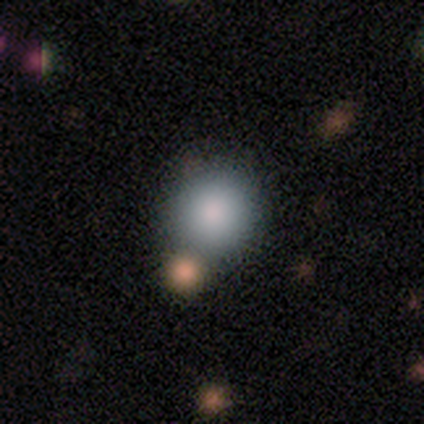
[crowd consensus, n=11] A smooth galaxy with no disk features (82%) that is round (100%). Merging: none (67%).